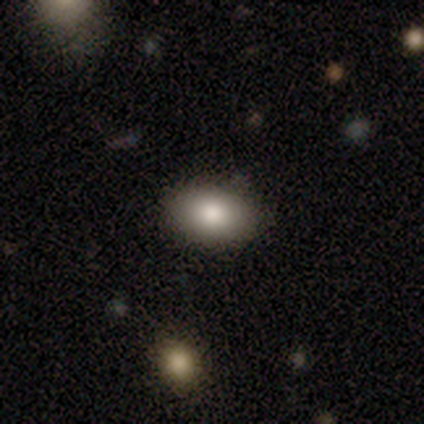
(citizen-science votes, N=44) Smooth or featured: smooth — 91% (featured or disk — 7%)
How rounded: in between — 75% (round — 22%)
Merging: none — 84% (minor disturbance — 16%)